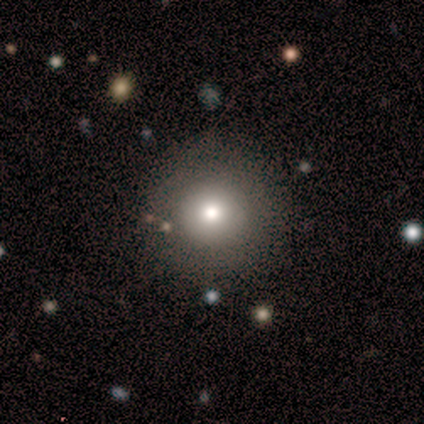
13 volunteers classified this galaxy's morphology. Smooth or featured? smooth (77%)
How rounded? round (100%)
Merging? none (100%)